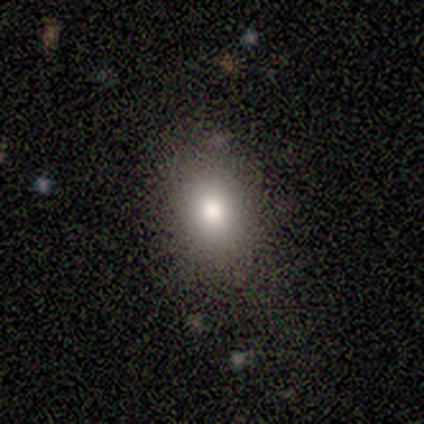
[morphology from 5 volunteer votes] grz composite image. It shows a smooth galaxy with no disk features (100%) that is in between round and cigar-shaped (100%). Merging: none (60%).